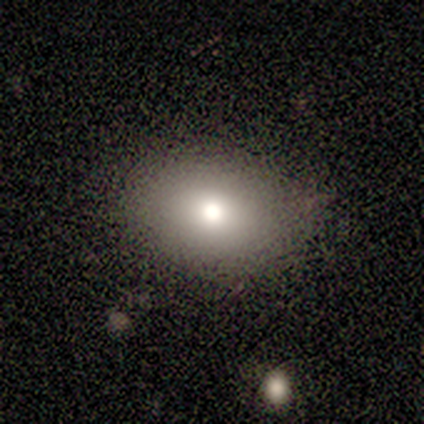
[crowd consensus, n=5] A smooth galaxy with no disk features (100%) that is in between round and cigar-shaped (80%).

Vote fractions:
- Smooth or featured? smooth: 100% / featured or disk: 0% / star or artifact: 0%
- How rounded? in between: 80% / round: 20% / cigar-shaped: 0%
- Merging? none: 100% / minor disturbance: 0% / major disturbance: 0% / merger: 0%